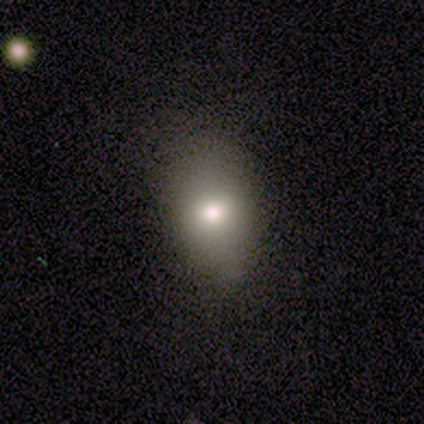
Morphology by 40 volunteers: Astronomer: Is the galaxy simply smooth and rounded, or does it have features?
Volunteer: smooth — 65%.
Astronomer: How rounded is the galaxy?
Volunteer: in between — 81%.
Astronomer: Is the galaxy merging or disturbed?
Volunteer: none — 69%.